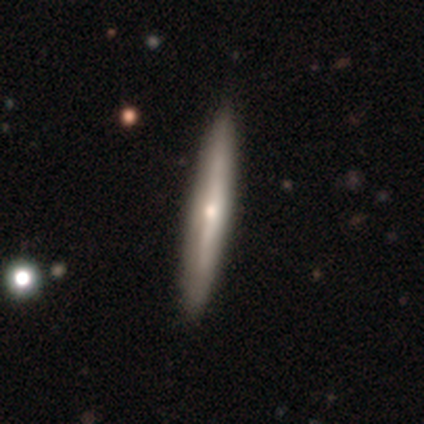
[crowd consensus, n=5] A smooth galaxy with no disk features (40%, tied with featured or disk) that is cigar-shaped (100%).

Vote fractions:
- Smooth or featured? smooth: 40% (tied) / featured or disk: 40% (tied) / star or artifact: 20%
- How rounded? cigar-shaped: 100% / round: 0% / in between: 0%
- Merging? none: 100% / minor disturbance: 0% / major disturbance: 0% / merger: 0%